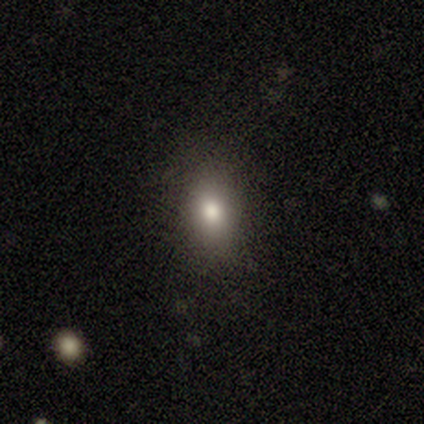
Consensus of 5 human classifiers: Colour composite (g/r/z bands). It shows a smooth galaxy with no disk features (80%) that is in between round and cigar-shaped (75%). Merging: none (100%).